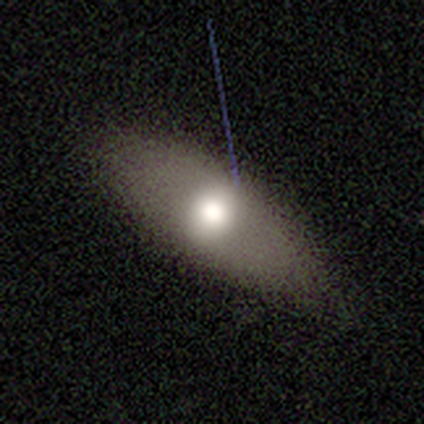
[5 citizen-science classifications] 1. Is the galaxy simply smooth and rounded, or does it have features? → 80% smooth, 20% featured or disk, 0% star or artifact.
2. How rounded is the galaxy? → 75% in between, 25% cigar-shaped, 0% round.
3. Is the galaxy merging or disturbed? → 60% minor disturbance, 40% none, 0% major disturbance, 0% merger.